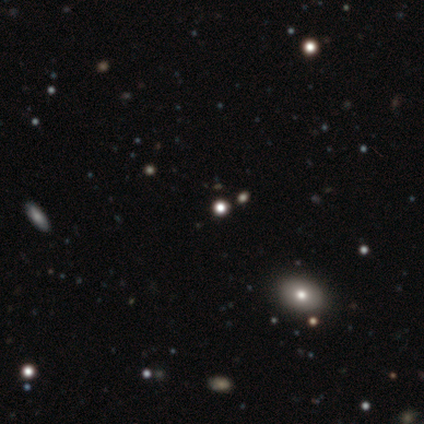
A star or artifact, not a galaxy (60%).

Vote fractions:
- Smooth or featured? star or artifact: 60% / smooth: 20% / featured or disk: 20%